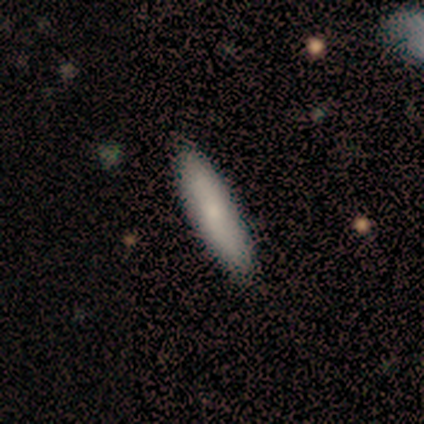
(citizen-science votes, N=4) Smooth or featured?
  - smooth: 75% *
  - star or artifact: 25%
  - featured or disk: 0%
How rounded?
  - in between: 67% *
  - cigar-shaped: 33%
  - round: 0%
Merging?
  - none: 100% *
  - minor disturbance: 0%
  - major disturbance: 0%
  - merger: 0%